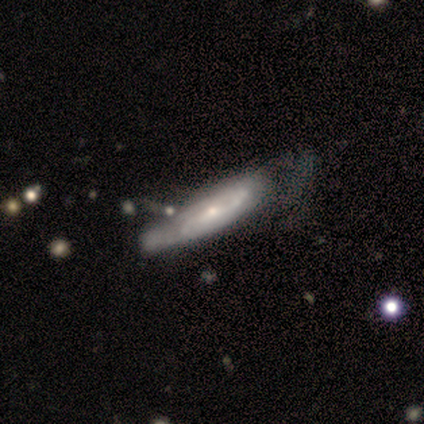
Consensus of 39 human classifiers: This is clearly a featured or disk galaxy (85%). It is likely not viewed edge-on (67%). Bar: marginally weak (41%, tied with no). Spiral arm pattern: clearly yes (82%). Spiral arm count: possibly can't tell (56%). Spiral winding: marginally medium (44%). Central bulge: likely small (64%). Merging: marginally minor disturbance (26%).